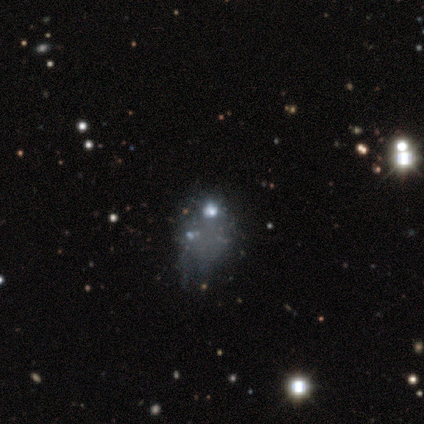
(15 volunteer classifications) A featured or disk galaxy (67%) with no bar (100%), no spiral arms (100%) and no central bulge (80%). Merging: none (42%).